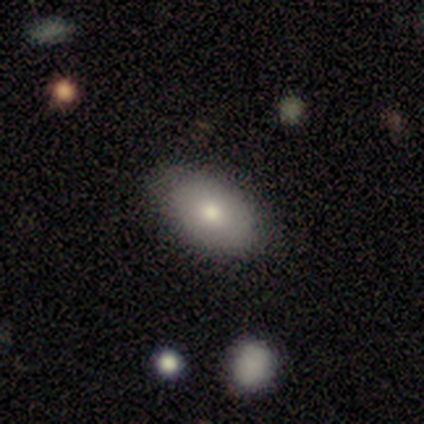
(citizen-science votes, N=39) This is likely a smooth galaxy (69%). How rounded: clearly in between (89%). Merging: clearly none (80%).